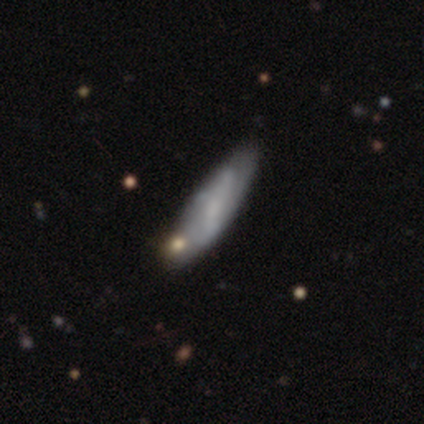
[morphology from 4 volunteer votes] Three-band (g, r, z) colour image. It shows a featured or disk galaxy (75%) with a weak bar (100%), no spiral arms (100%) and a small central bulge (67%). Merging: minor disturbance (50%).